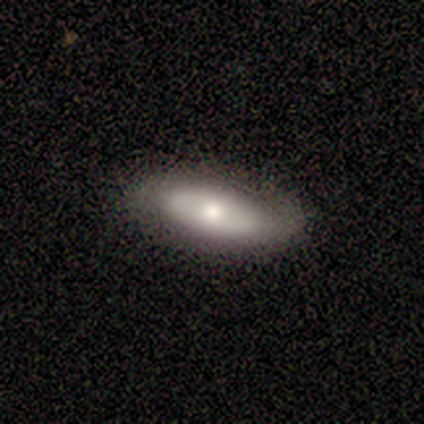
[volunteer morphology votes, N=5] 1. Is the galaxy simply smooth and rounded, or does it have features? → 100% smooth, 0% featured or disk, 0% star or artifact.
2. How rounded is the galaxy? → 60% in between, 40% cigar-shaped, 0% round.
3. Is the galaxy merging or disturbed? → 80% none, 20% minor disturbance, 0% major disturbance, 0% merger.